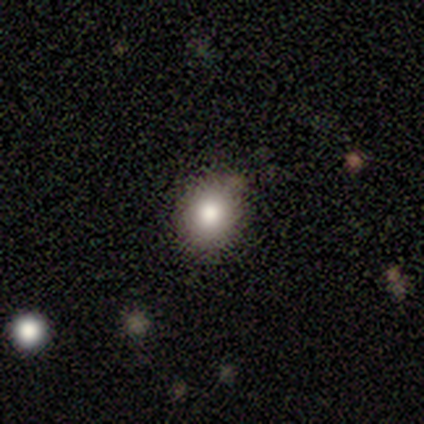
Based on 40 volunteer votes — smooth_or_featured: smooth (p=0.78) [alt: star or artifact p=0.15]
how_rounded: round (p=0.71) [alt: in between p=0.29]
merging: none (p=0.91) [alt: minor disturbance p=0.06]